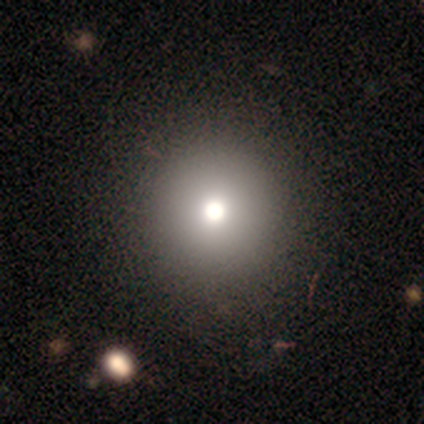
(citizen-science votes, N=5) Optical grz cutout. It shows a smooth galaxy with no disk features (40%, tied with star or artifact) that is round (100%). Merging: none (100%).